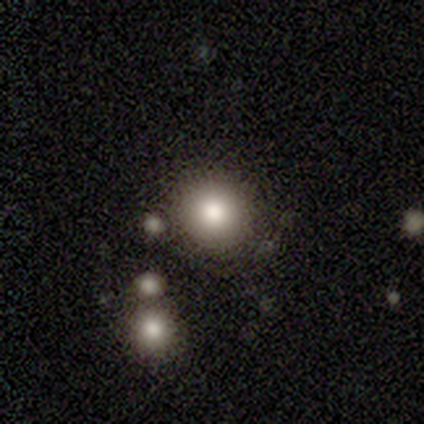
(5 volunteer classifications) Smooth or featured?
  - smooth: 80% *
  - featured or disk: 20%
  - star or artifact: 0%
How rounded?
  - round: 100% *
  - in between: 0%
  - cigar-shaped: 0%
Merging?
  - none: 80% *
  - merger: 20%
  - minor disturbance: 0%
  - major disturbance: 0%